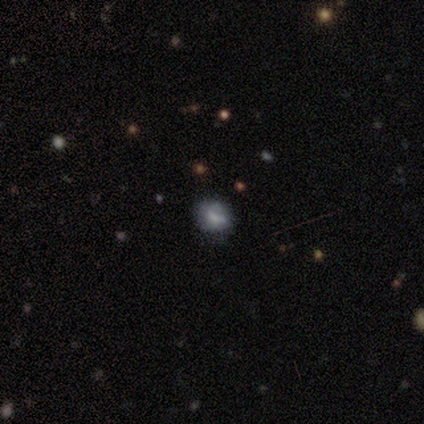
Smooth or featured? 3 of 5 (60%) said smooth. How rounded? 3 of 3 (100%) said round. Merging? 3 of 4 (75%) said none.